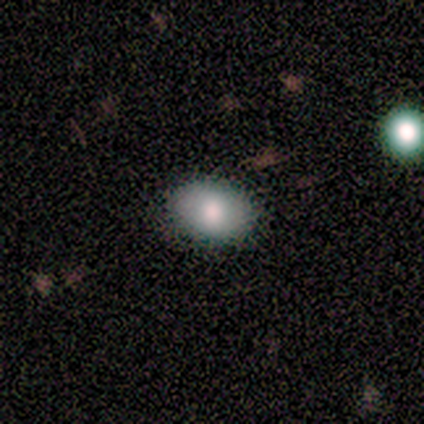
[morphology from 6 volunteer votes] Smooth or featured: smooth — 100%
How rounded: in between — 83% (round — 17%)
Merging: none — 83% (major disturbance — 17%)